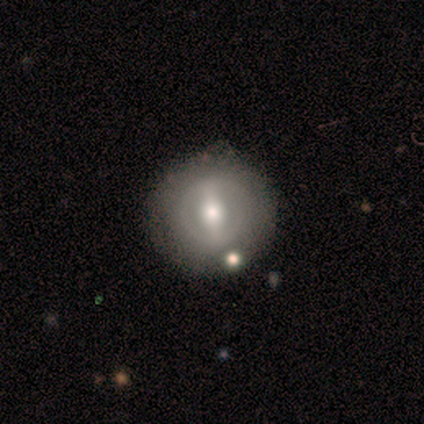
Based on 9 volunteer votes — smooth-or-featured: featured or disk: 56% | smooth: 33% | star or artifact: 11%
  disk-edge-on: no: 100% | yes: 0%
    bar: weak: 60% | strong: 40% | no: 0%
    has-spiral-arms: no: 80% | yes: 20%
    bulge-size: moderate: 40% (tied) | small: 40% (tied) | large: 20% | dominant: 0% | none: 0%
  merging: none: 75% | minor disturbance: 25% | major disturbance: 0% | merger: 0%